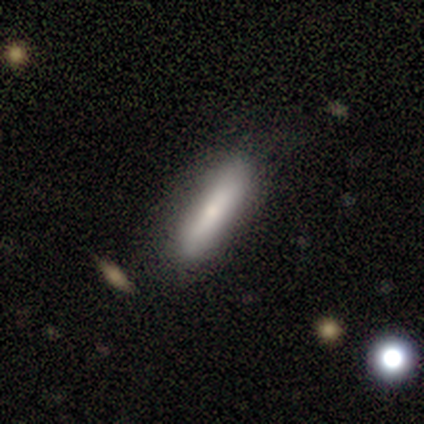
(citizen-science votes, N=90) Morphology: type=smooth (68%); roundness=cigar-shaped (74%); merging=none (77%).